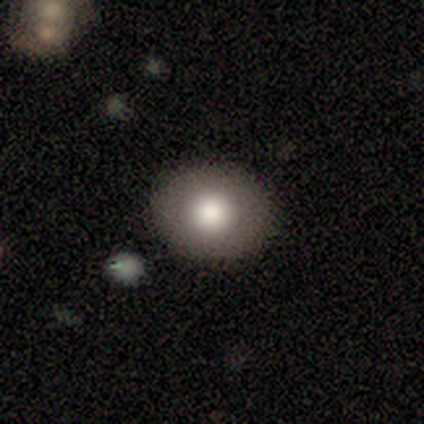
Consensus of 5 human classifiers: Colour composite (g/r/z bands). It shows a smooth galaxy with no disk features (60%) that is round (100%). Merging: none (100%).